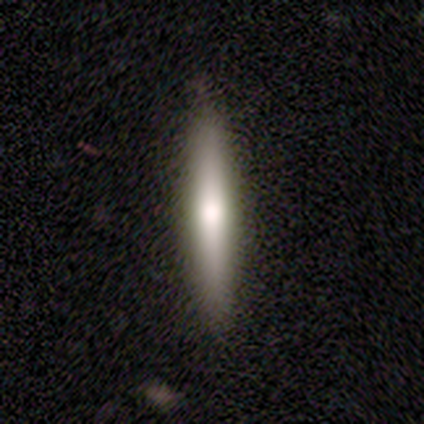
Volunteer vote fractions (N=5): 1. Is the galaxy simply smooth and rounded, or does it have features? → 60% featured or disk, 40% smooth, 0% star or artifact.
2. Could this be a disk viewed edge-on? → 100% yes, 0% no.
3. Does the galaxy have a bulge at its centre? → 100% rounded, 0% boxy, 0% none.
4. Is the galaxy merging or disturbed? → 80% none, 20% merger, 0% minor disturbance, 0% major disturbance.